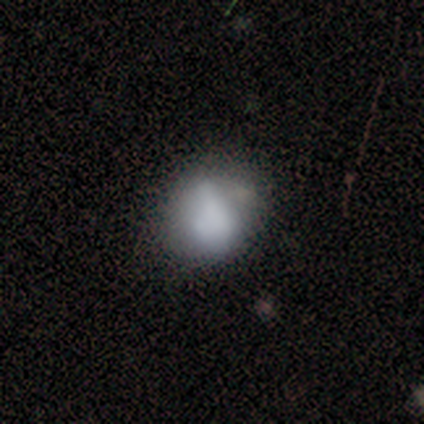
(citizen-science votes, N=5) smooth_or_featured: smooth (p=0.60) [alt: featured or disk p=0.40]
how_rounded: round (p=0.67) [alt: in between p=0.33]
merging: none (p=0.60) [alt: minor disturbance p=0.40]